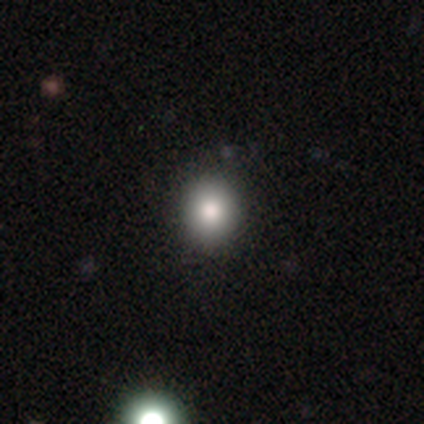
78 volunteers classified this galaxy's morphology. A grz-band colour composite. It shows a smooth galaxy with no disk features (86%) that is round (88%). Merging: none (46%).